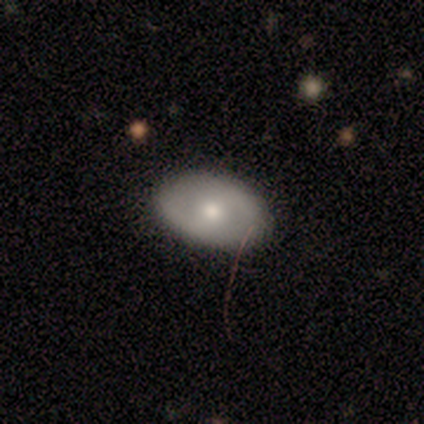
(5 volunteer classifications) Morphology: type=smooth (100%); roundness=in between (80%); merging=none (60%).